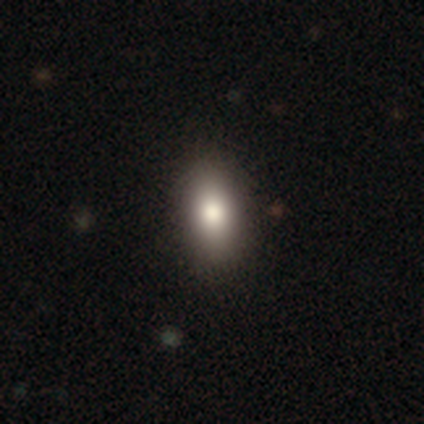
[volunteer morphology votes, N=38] This appears to be a smooth galaxy with no disk features (82%) that is in between round and cigar-shaped (87%). Merging: none (89%).